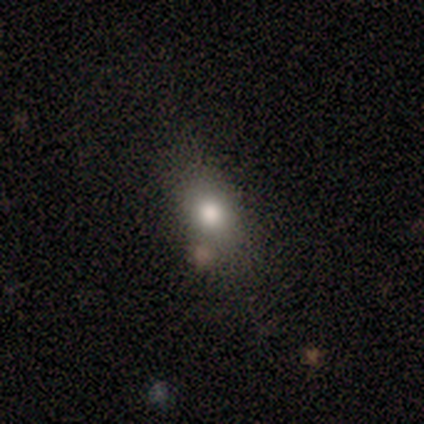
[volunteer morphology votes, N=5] smooth-or-featured: smooth: 100% | featured or disk: 0% | star or artifact: 0%
  how-rounded: in between: 60% | round: 40% | cigar-shaped: 0%
  merging: none: 60% | minor disturbance: 20% | merger: 20% | major disturbance: 0%